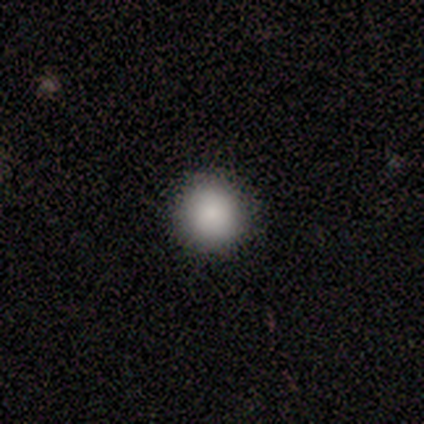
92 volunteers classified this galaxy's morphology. A smooth galaxy with no disk features (85%) that is round (99%).

Vote fractions:
- Smooth or featured? smooth: 85% / star or artifact: 12% / featured or disk: 3%
- How rounded? round: 99% / in between: 1% / cigar-shaped: 0%
- Merging? none: 95% / minor disturbance: 2% / major disturbance: 2% / merger: 0%